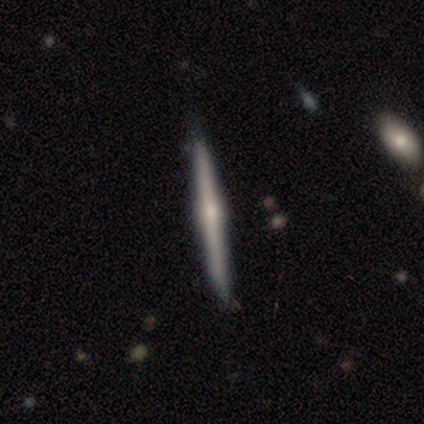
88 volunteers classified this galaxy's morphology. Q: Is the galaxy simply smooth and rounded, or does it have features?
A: featured or disk — 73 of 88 (83%).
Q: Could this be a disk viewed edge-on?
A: yes — 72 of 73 (99%).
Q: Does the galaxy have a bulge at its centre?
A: rounded — 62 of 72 (86%).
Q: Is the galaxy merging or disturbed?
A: none — 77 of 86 (90%).